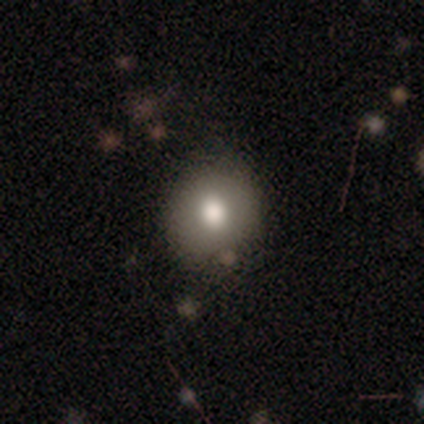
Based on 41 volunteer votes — smooth-or-featured: smooth: 90% | featured or disk: 5% | star or artifact: 5%
  how-rounded: round: 81% | in between: 19% | cigar-shaped: 0%
  merging: none: 72% | minor disturbance: 21% | merger: 5% | major disturbance: 3%